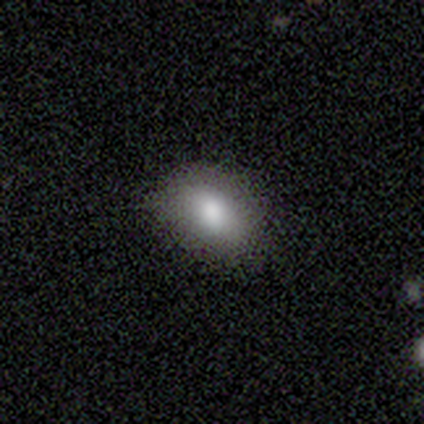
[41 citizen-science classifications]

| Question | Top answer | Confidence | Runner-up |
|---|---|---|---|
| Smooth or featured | smooth | 85% | featured or disk (7%) |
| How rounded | in between | 91% | round (9%) |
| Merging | none | 84% | minor disturbance (13%) |